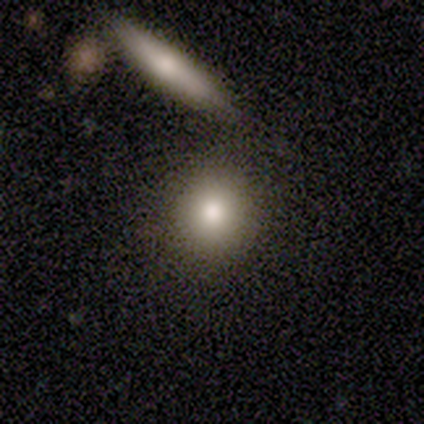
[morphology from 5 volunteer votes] Q: Smooth or featured?
A: smooth (80%); runner-up: star or artifact (20%)
Q: How rounded?
A: round (75%); runner-up: in between (25%)
Q: Merging?
A: none (100%)